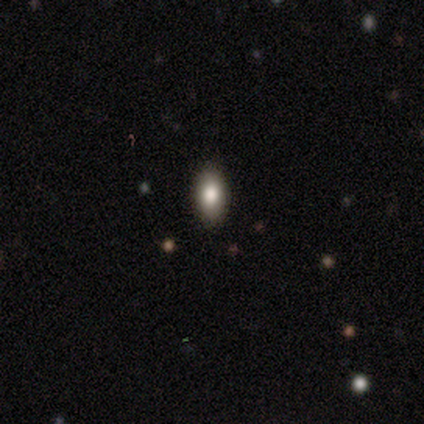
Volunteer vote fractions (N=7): A smooth galaxy with no disk features (71%) that is in between round and cigar-shaped (100%).

Vote fractions:
- Smooth or featured? smooth: 71% / featured or disk: 29% / star or artifact: 0%
- How rounded? in between: 100% / round: 0% / cigar-shaped: 0%
- Merging? none: 100% / minor disturbance: 0% / major disturbance: 0% / merger: 0%